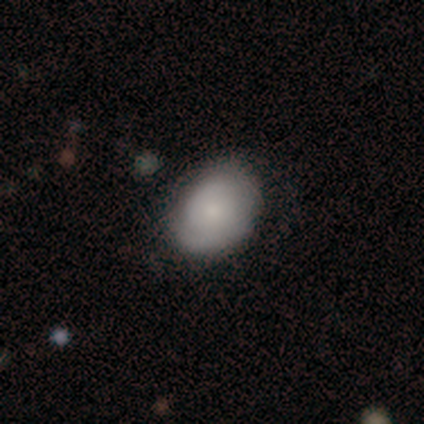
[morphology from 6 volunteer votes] Smooth or featured: featured or disk — 67% (smooth — 33%)
Edge-on disk: no — 100%
Bar: no — 100%
Spiral arms: yes — 75% (no — 25%)
Spiral winding: tight — 67% (medium — 33%)
Spiral arm count: can't tell — 67% (2 — 33%)
Bulge size: small — 100%
Merging: none — 67% (minor disturbance — 33%)